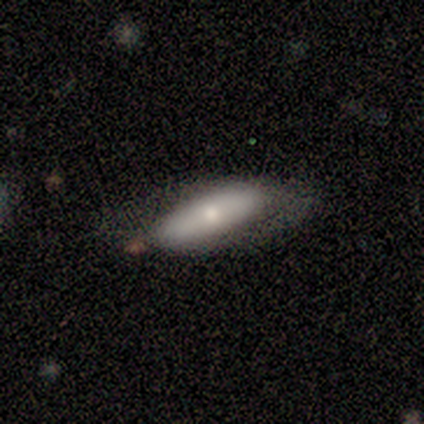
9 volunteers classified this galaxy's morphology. smooth_or_featured: smooth (p=0.56) [alt: featured or disk p=0.44]
how_rounded: cigar-shaped (p=0.60) [alt: in between p=0.40]
merging: none (p=0.44) [alt: minor disturbance p=0.33]